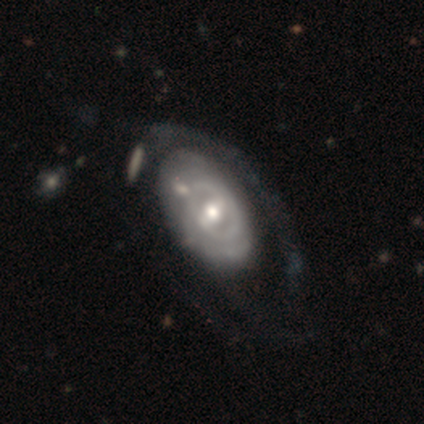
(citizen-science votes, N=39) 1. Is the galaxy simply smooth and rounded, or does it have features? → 79% featured or disk, 10% smooth, 10% star or artifact.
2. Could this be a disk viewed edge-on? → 90% no, 10% yes.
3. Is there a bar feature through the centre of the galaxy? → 39% weak, 32% no, 29% strong.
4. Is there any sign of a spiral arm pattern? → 57% no, 43% yes.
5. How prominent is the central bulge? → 57% moderate, 21% small, 11% large, 7% dominant, 4% none.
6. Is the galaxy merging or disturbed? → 40% none, 26% major disturbance, 20% minor disturbance, 14% merger.